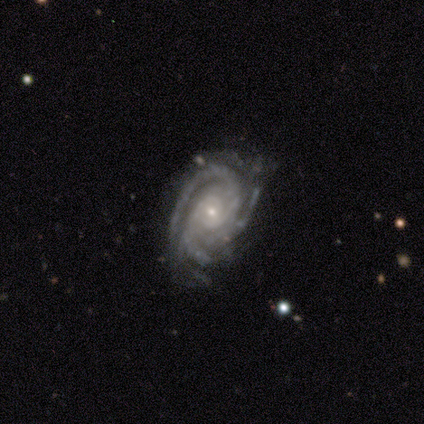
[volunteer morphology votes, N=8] featured or disk 100%, smooth 0%, star or artifact 0%. Down the decision tree: edge-on disk — no (100%); bar — no (62%); spiral arms — yes (100%); spiral arm count — 3 (88%); spiral winding — tight (88%); bulge size — small (75%); merging — none (88%).